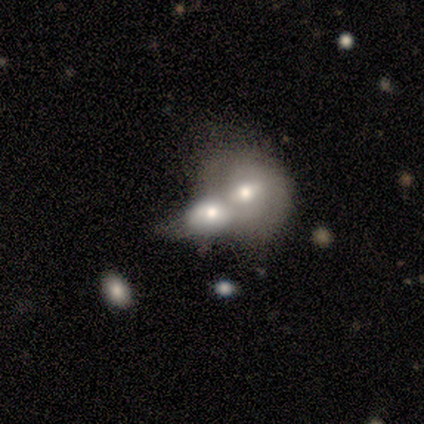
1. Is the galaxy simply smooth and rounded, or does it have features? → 60% smooth, 40% featured or disk, 0% star or artifact.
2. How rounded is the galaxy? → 100% round, 0% in between, 0% cigar-shaped.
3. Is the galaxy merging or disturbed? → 60% merger, 20% none, 20% major disturbance, 0% minor disturbance.